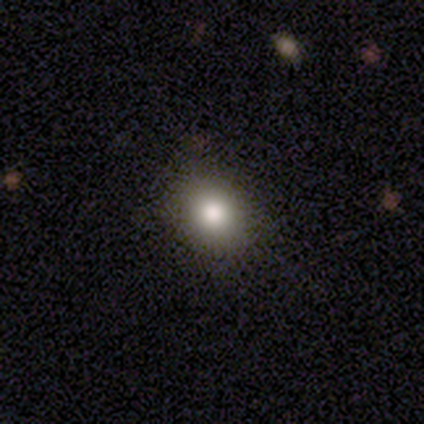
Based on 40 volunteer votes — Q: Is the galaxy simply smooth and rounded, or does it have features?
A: smooth — 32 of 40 (80%).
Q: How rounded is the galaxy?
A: round — 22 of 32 (69%).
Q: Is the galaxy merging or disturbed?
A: none — 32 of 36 (89%).